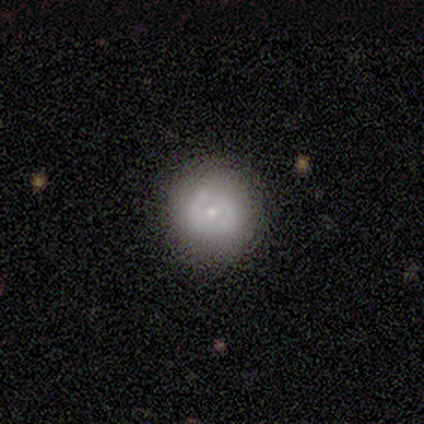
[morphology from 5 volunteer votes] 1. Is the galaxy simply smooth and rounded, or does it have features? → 60% featured or disk, 40% smooth, 0% star or artifact.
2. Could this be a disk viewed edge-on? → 100% no, 0% yes.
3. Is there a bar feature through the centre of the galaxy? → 67% weak, 33% no, 0% strong.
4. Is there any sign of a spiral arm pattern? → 67% no, 33% yes.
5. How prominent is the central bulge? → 67% moderate, 33% small, 0% dominant, 0% large, 0% none.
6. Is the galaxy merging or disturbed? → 100% none, 0% minor disturbance, 0% major disturbance, 0% merger.